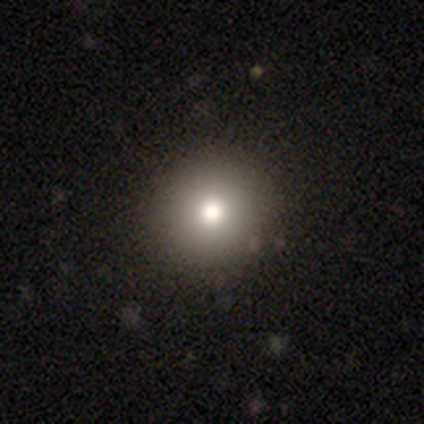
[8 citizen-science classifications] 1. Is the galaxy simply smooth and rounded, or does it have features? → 50% smooth (tied), 50% star or artifact (tied), 0% featured or disk.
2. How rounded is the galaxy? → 100% round, 0% in between, 0% cigar-shaped.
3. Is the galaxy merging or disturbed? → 100% none, 0% minor disturbance, 0% major disturbance, 0% merger.